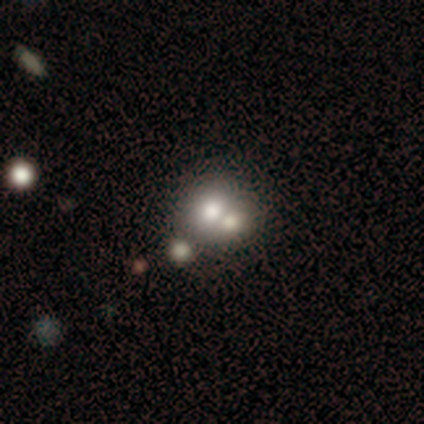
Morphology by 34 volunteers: Smooth or featured?
  - smooth: 62% *
  - featured or disk: 29%
  - star or artifact: 9%
How rounded?
  - round: 71% *
  - in between: 29%
  - cigar-shaped: 0%
Merging?
  - merger: 77% *
  - none: 0%
  - minor disturbance: 0%
  - major disturbance: 0%